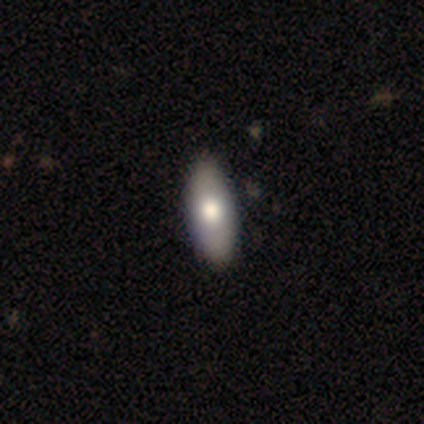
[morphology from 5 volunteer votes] Smooth or featured? smooth (100%)
How rounded? in between (100%)
Merging? none (100%)